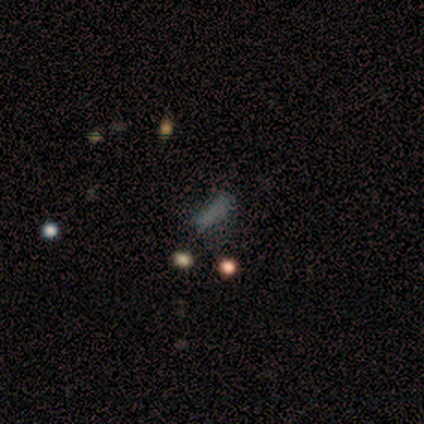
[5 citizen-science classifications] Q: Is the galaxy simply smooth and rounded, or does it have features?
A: smooth — 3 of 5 (60%).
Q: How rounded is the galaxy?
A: in between — 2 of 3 (67%).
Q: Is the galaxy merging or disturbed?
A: none — 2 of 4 (50%, tied with major disturbance).